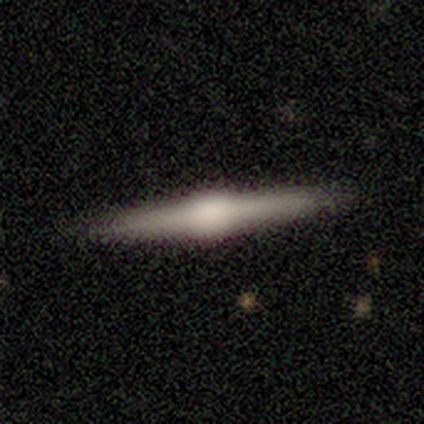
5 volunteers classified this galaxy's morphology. Smooth or featured: featured or disk — 100%
Edge-on disk: yes — 100%
Edge-on bulge: boxy — 60% (rounded — 40%)
Merging: none — 100%